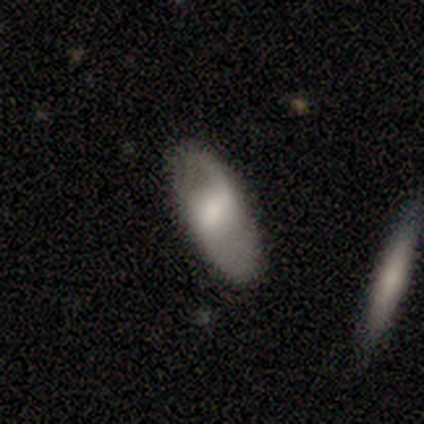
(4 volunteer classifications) smooth-or-featured: smooth: 50% (tied) | featured or disk: 50% (tied) | star or artifact: 0%
  how-rounded: round: 50% (tied) | in between: 50% (tied) | cigar-shaped: 0%
  merging: none: 75% | major disturbance: 25% | minor disturbance: 0% | merger: 0%